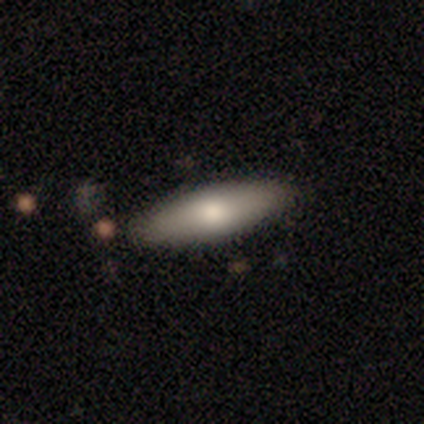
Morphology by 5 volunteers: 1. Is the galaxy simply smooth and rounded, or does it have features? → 100% smooth, 0% featured or disk, 0% star or artifact.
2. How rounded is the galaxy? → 60% cigar-shaped, 40% in between, 0% round.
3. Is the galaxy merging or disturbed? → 60% none, 40% minor disturbance, 0% major disturbance, 0% merger.